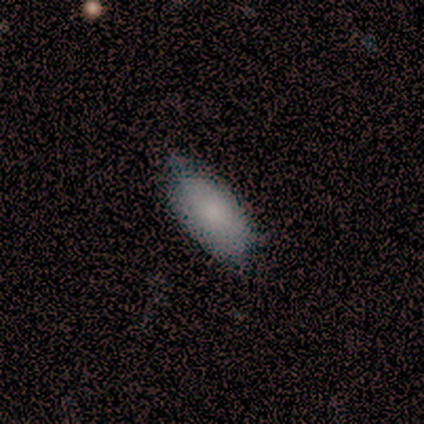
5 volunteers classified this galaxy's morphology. Q: Smooth or featured?
A: smooth (80%); runner-up: featured or disk (20%)
Q: How rounded?
A: in between (100%)
Q: Merging?
A: none (80%); runner-up: major disturbance (20%)